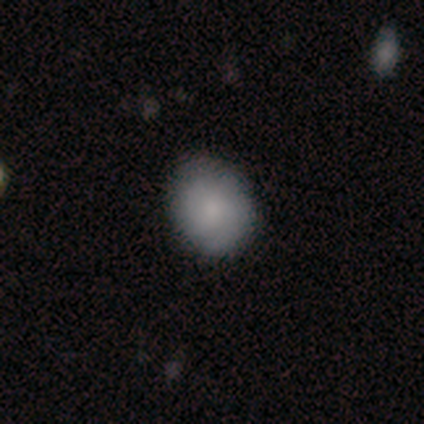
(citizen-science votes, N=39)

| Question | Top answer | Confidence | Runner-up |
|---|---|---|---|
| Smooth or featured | smooth | 67% | featured or disk (28%) |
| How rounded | round | 58% | in between (42%) |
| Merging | none | 73% | minor disturbance (24%) |